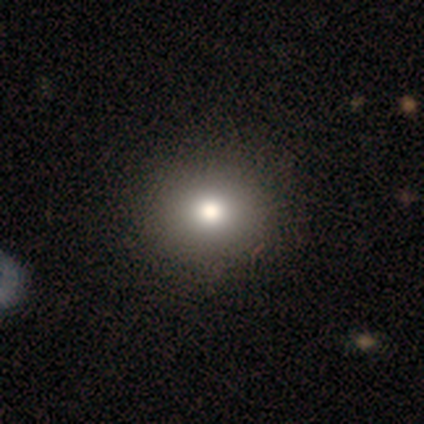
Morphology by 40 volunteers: Smooth or featured: smooth — 78% (star or artifact — 12%)
How rounded: round — 84% (in between — 16%)
Merging: none — 74% (minor disturbance — 3%)